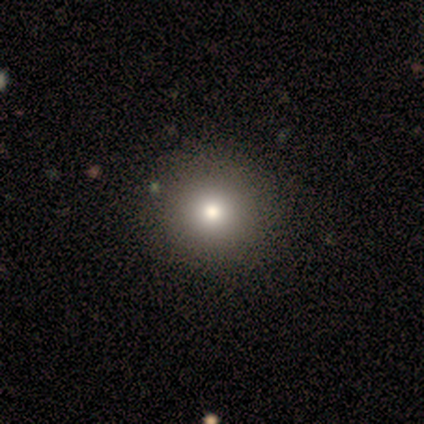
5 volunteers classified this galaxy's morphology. Q: Smooth or featured?
A: smooth (80%); runner-up: star or artifact (20%)
Q: How rounded?
A: round (100%)
Q: Merging?
A: none (100%)